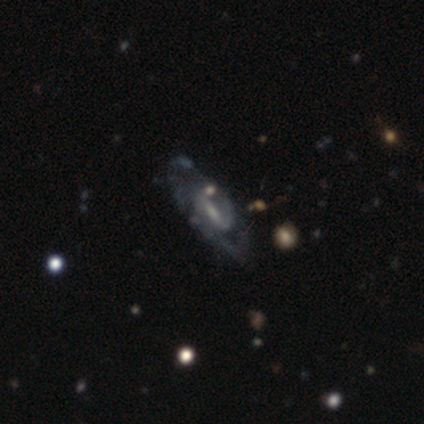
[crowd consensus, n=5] Smooth or featured?
  - featured or disk: 80% *
  - star or artifact: 20%
  - smooth: 0%
Edge-on disk?
  - no: 100% *
  - yes: 0%
Bar?
  - weak: 75% *
  - no: 25%
  - strong: 0%
Spiral arms?
  - yes: 100% *
  - no: 0%
Spiral winding?
  - tight: 50% * (tied)
  - medium: 50% * (tied)
  - loose: 0%
Spiral arm count?
  - 2: 75% *
  - can't tell: 25%
  - 1: 0%
  - 3: 0%
  - 4: 0%
  - more than 4: 0%
Bulge size?
  - small: 50% *
  - moderate: 25%
  - none: 25%
  - dominant: 0%
  - large: 0%
Merging?
  - none: 75% *
  - minor disturbance: 25%
  - major disturbance: 0%
  - merger: 0%